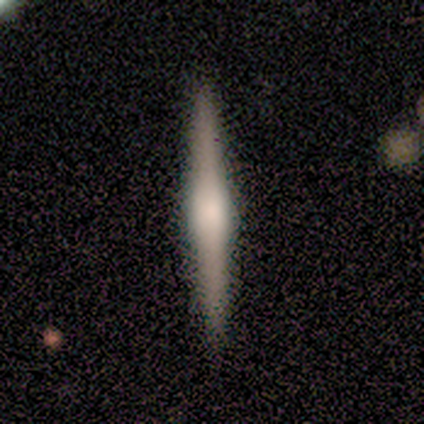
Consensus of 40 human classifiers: This appears to be a featured or disk galaxy (78%) viewed edge-on (100%) with a rounded central bulge (61%). Merging: none (90%).